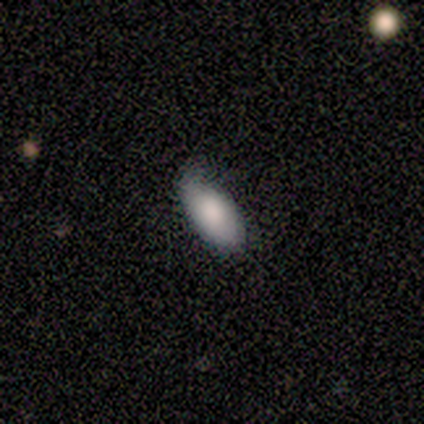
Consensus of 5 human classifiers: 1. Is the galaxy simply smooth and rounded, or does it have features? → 100% smooth, 0% featured or disk, 0% star or artifact.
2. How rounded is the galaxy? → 100% in between, 0% round, 0% cigar-shaped.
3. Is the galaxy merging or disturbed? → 80% minor disturbance, 20% none, 0% major disturbance, 0% merger.